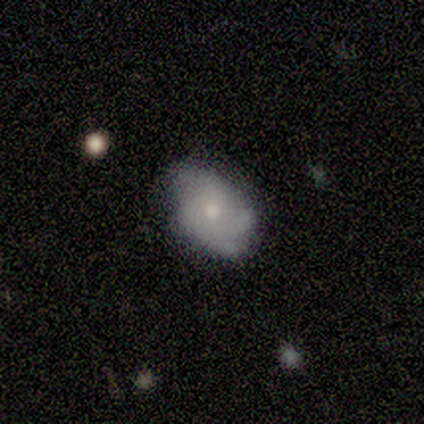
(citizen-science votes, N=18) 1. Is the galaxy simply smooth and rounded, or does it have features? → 61% featured or disk, 39% smooth, 0% star or artifact.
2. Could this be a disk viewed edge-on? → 91% no, 9% yes.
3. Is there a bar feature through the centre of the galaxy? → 90% no, 10% weak, 0% strong.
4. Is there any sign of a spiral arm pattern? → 80% yes, 20% no.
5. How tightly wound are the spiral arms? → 50% tight, 38% medium, 12% loose.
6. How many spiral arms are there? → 38% 4, 25% 3, 25% can't tell, 12% 2, 0% 1, 0% more than 4.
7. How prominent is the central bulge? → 50% small, 40% moderate, 10% large, 0% dominant, 0% none.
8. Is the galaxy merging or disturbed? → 67% none, 17% minor disturbance, 11% major disturbance, 6% merger.